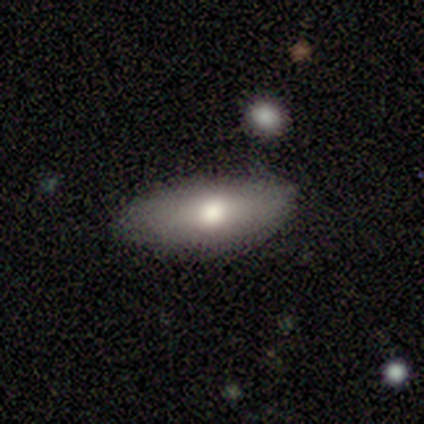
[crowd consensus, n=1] Smooth or featured: smooth — 100%
How rounded: in between — 100%
Merging: none — 100%